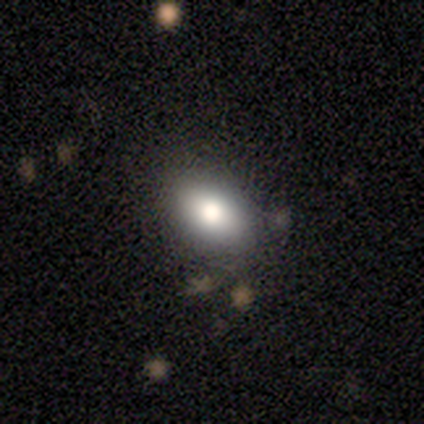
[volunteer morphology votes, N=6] Smooth or featured: smooth — 67% (star or artifact — 33%)
How rounded: in between — 100%
Merging: none — 100%